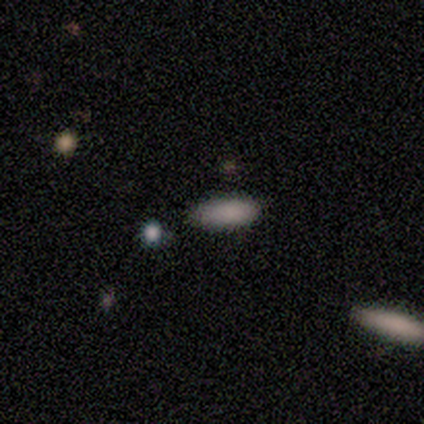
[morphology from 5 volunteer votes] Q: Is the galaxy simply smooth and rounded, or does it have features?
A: smooth — 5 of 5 (100%).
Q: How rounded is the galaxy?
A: in between — 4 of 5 (80%).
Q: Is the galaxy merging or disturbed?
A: none — 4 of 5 (80%).